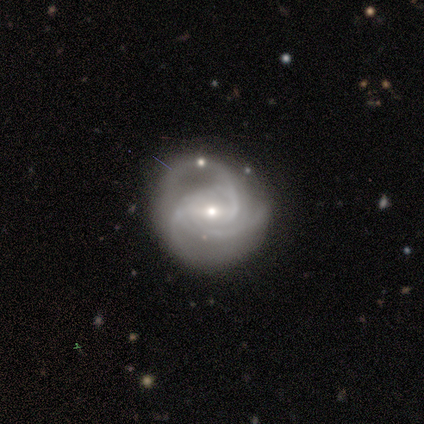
featured or disk 93%, smooth 7%, star or artifact 0%. Down the decision tree: edge-on disk — no (100%); bar — weak (57%); spiral arms — yes (100%); spiral arm count — 3 (54%); spiral winding — tight (46%); bulge size — small (68%); merging — none (63%).